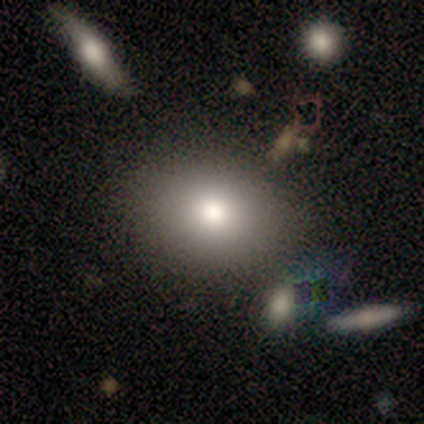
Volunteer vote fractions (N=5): Overall: smooth (80%). How rounded: round (50%, tied with in between). Merging: none (80%).